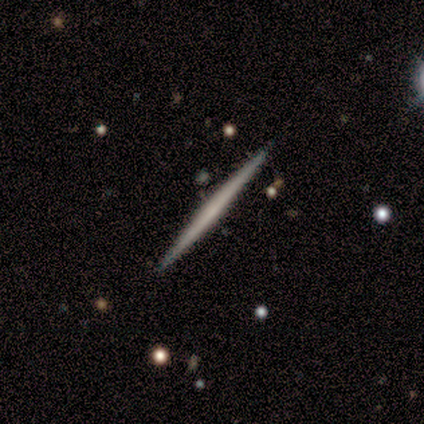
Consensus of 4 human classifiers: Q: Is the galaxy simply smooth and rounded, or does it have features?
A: featured or disk — 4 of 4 (100%).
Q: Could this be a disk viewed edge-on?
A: yes — 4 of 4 (100%).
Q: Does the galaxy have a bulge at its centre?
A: none — 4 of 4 (100%).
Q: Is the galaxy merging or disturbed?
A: none — 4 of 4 (100%).